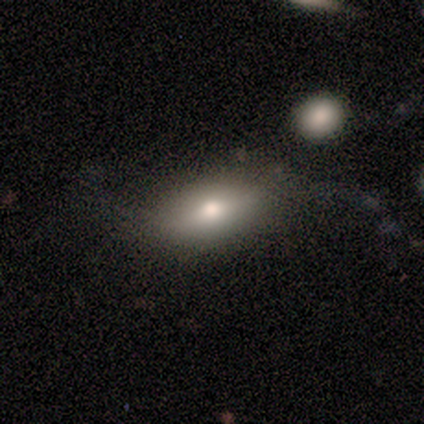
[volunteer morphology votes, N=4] smooth_or_featured: smooth (p=0.75) [alt: featured or disk p=0.25]
how_rounded: in between (p=1.00)
merging: none (p=1.00)